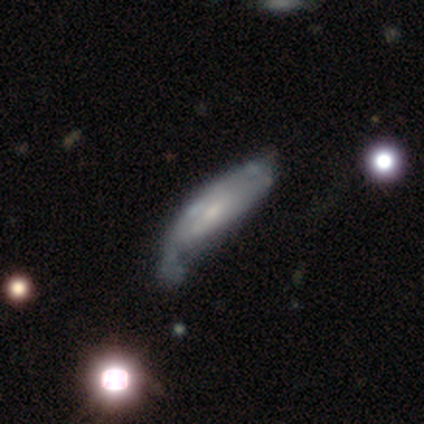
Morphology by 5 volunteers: Q: Smooth or featured?
A: featured or disk (60%); runner-up: smooth (40%)
Q: Edge-on disk?
A: no (100%)
Q: Bar?
A: no (67%); runner-up: weak (33%)
Q: Spiral arms?
A: no (67%); runner-up: yes (33%)
Q: Bulge size?
A: moderate (67%); runner-up: small (33%)
Q: Merging?
A: major disturbance (60%); runner-up: minor disturbance (40%)